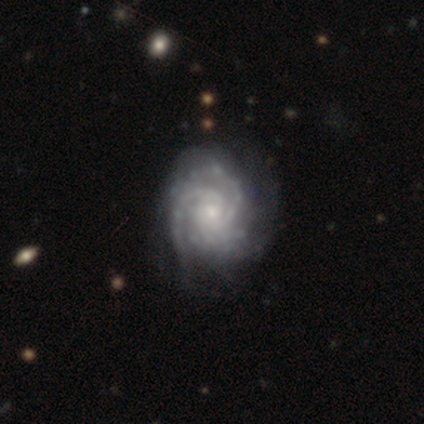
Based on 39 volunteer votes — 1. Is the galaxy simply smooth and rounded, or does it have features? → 92% featured or disk, 8% star or artifact, 0% smooth.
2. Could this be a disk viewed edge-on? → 100% no, 0% yes.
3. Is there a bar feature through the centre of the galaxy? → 81% no, 17% weak, 3% strong.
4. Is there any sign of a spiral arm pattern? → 97% yes, 3% no.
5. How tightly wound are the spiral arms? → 77% tight, 14% medium, 9% loose.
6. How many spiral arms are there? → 46% 3, 20% can't tell, 11% 2, 11% 4, 11% more than 4, 0% 1.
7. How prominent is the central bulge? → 81% small, 17% moderate, 3% none, 0% dominant, 0% large.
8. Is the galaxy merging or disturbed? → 36% none, 11% minor disturbance, 8% major disturbance, 0% merger.